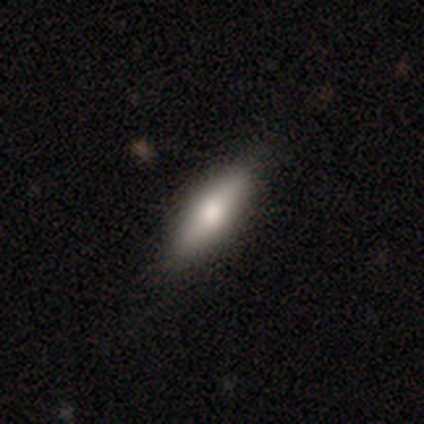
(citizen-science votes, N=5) This is clearly a smooth galaxy (80%). How rounded: likely in between (75%). Merging: likely none (75%).